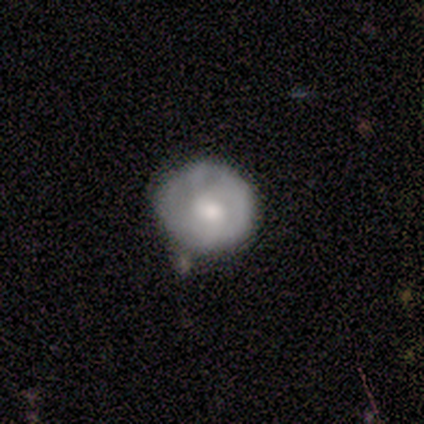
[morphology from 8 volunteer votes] Overall: smooth (75%). How rounded: round (100%). Merging: none (50%, tied with minor disturbance).